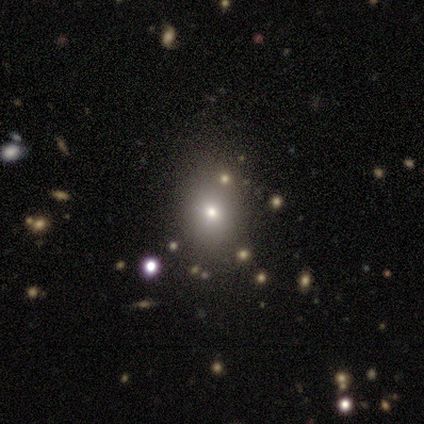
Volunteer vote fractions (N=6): A smooth galaxy with no disk features (100%) that is round (67%). Merging: none (83%).